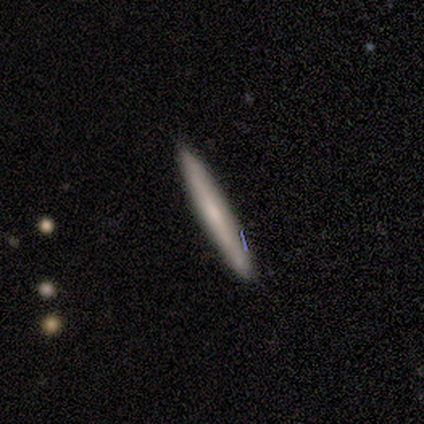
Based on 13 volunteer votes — A smooth galaxy with no disk features (62%) that is cigar-shaped (100%).

Vote fractions:
- Smooth or featured? smooth: 62% / featured or disk: 38% / star or artifact: 0%
- How rounded? cigar-shaped: 100% / round: 0% / in between: 0%
- Merging? none: 85% / minor disturbance: 15% / major disturbance: 0% / merger: 0%